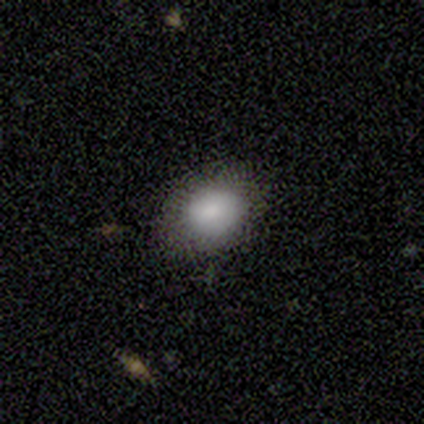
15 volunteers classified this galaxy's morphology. Smooth or featured?
  - smooth: 93% *
  - star or artifact: 7%
  - featured or disk: 0%
How rounded?
  - in between: 79% *
  - round: 21%
  - cigar-shaped: 0%
Merging?
  - none: 79% *
  - minor disturbance: 21%
  - major disturbance: 0%
  - merger: 0%